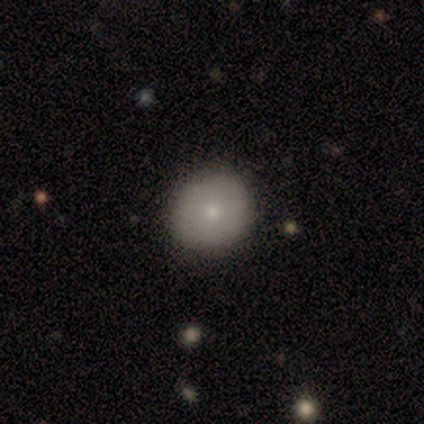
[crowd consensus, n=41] Volunteers were most divided on "smooth or featured": smooth: 78%, featured or disk: 17%, star or artifact: 5%. More confident: merging — none (85%); how rounded — round (84%).